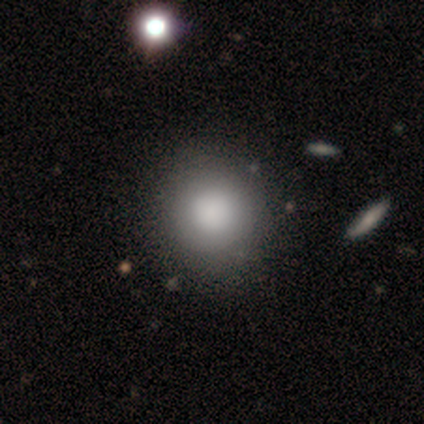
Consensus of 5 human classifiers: Smooth or featured? smooth (100%)
How rounded? round (60%)
Merging? none (100%)